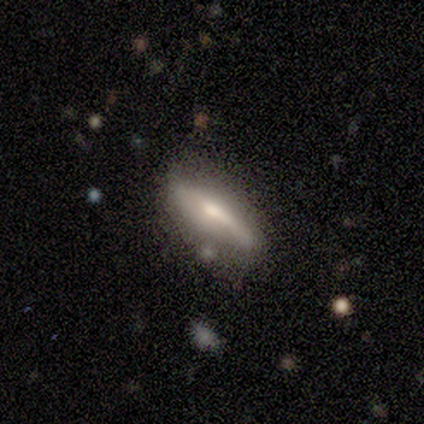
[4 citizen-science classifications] smooth 75%, featured or disk 25%, star or artifact 0%. Down the decision tree: how rounded — in between (67%); merging — none (75%).